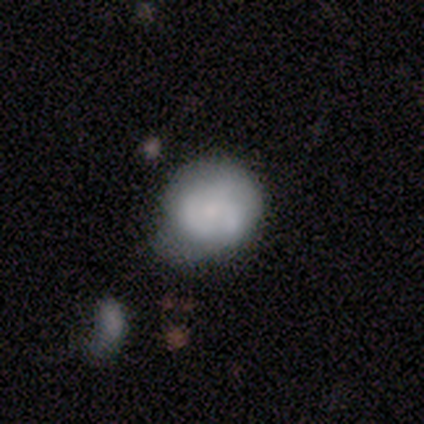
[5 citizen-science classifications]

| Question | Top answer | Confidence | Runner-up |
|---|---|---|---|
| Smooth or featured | featured or disk | 80% | smooth (20%) |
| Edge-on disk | no | 100% | — |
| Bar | no | 75% | weak (25%) |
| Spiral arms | yes | 50% | tied: no (50%) |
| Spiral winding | tight | 50% | tied: loose (50%) |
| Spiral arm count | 3 | 100% | — |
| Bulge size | small | 75% | none (25%) |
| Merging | none | 60% | minor disturbance (40%) |